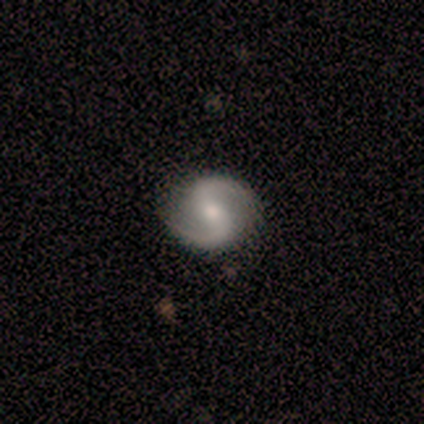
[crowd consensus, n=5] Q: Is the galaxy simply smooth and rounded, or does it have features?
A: featured or disk — 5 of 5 (100%).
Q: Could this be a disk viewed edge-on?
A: no — 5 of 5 (100%).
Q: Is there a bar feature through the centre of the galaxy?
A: strong — 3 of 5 (60%).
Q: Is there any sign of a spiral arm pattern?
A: yes — 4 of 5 (80%).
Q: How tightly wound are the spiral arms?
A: medium — 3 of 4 (75%).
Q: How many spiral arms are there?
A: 2 — 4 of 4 (100%).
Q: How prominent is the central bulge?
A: moderate — 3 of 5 (60%).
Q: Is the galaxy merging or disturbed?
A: none — 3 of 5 (60%).